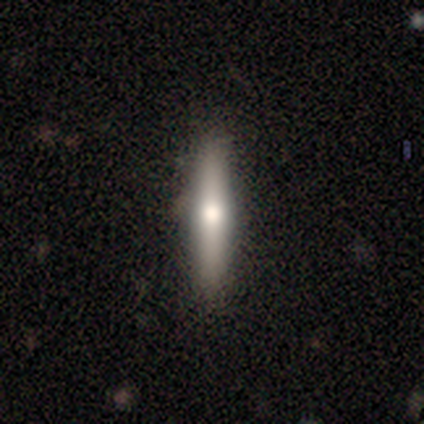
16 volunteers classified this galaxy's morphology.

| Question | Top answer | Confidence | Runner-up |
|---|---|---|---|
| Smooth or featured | smooth | 81% | featured or disk (12%) |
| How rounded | cigar-shaped | 85% | round (8%) |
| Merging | none | 93% | minor disturbance (7%) |